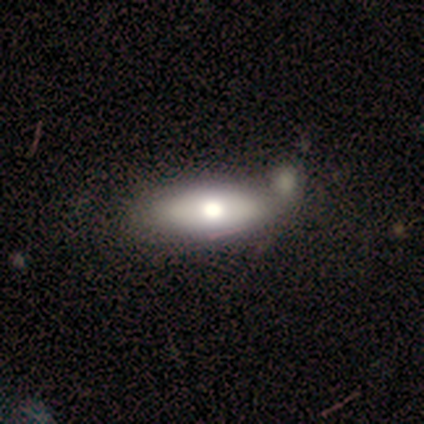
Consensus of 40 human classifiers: smooth_or_featured: smooth (p=0.57) [alt: featured or disk p=0.38]
how_rounded: in between (p=0.83) [alt: cigar-shaped p=0.17]
merging: none (p=0.39) [alt: merger p=0.26]